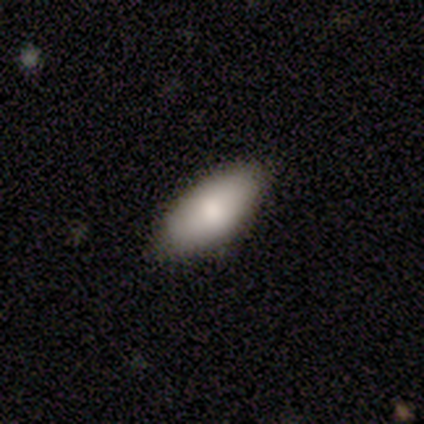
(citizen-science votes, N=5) smooth_or_featured: smooth (p=0.80) [alt: featured or disk p=0.20]
how_rounded: in between (p=1.00)
merging: none (p=0.80) [alt: minor disturbance p=0.20]